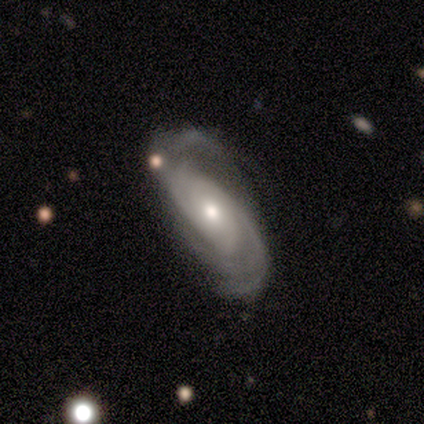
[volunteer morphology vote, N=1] Smooth or featured? 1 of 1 (100%) said star or artifact.